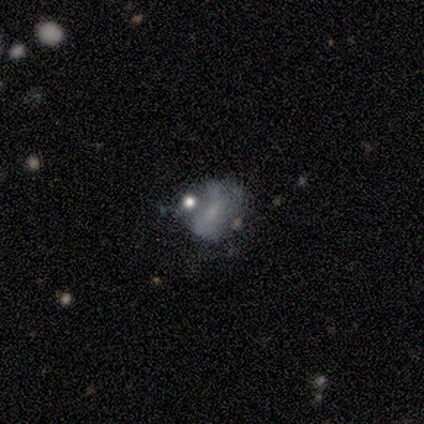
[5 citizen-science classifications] smooth_or_featured: star or artifact (p=0.80) [alt: featured or disk p=0.20]